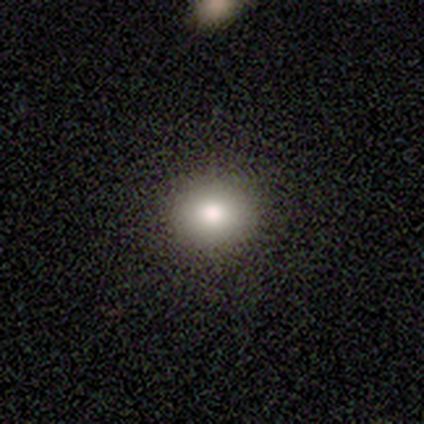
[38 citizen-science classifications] Volunteers were most divided on "smooth or featured": smooth: 82%, featured or disk: 11%, star or artifact: 8%. More confident: how rounded — round (87%); merging — none (86%).